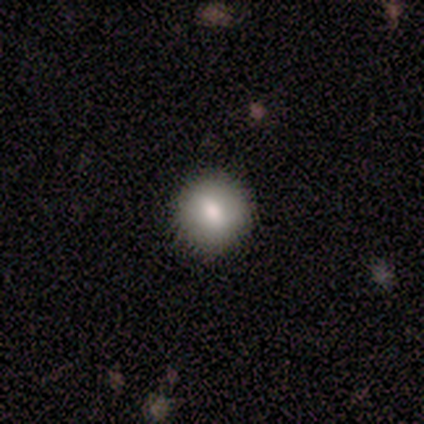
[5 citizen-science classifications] This is clearly a smooth galaxy (80%). How rounded: clearly round (100%). Merging: likely none (60%).